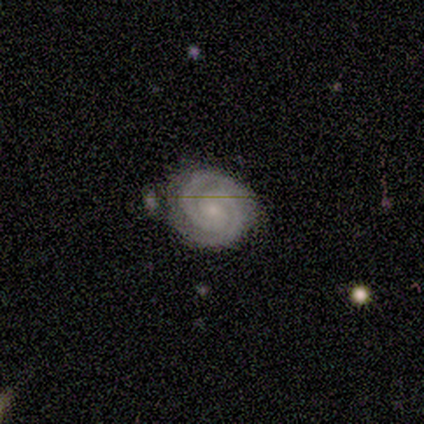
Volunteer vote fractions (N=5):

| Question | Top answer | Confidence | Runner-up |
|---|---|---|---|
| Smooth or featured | featured or disk | 100% | — |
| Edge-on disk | no | 100% | — |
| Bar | no | 60% | strong (20%) |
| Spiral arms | yes | 100% | — |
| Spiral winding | tight | 80% | medium (20%) |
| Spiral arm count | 2 | 60% | 3 (20%) |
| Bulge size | small | 60% | moderate (40%) |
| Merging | none | 100% | — |